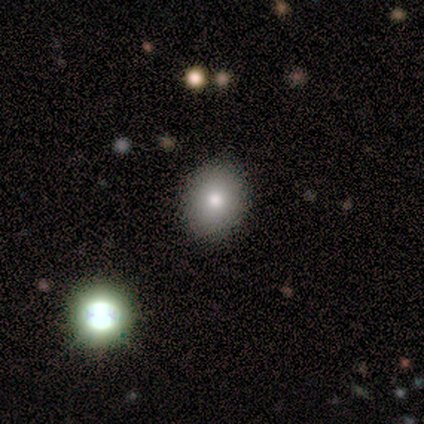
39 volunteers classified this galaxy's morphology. smooth 64%, star or artifact 23%, featured or disk 13%. Down the decision tree: how rounded — in between (56%); merging — none (87%).